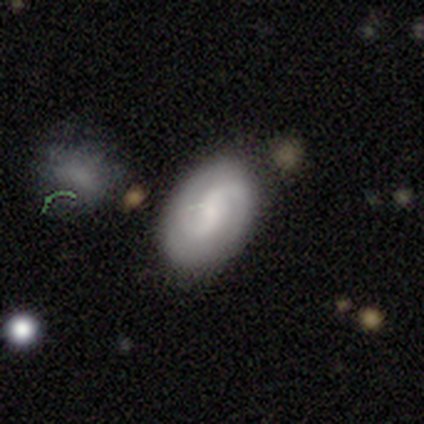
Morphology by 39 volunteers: Overall: smooth (49%; featured or disk 46%). How rounded: in between (84%). Merging: none (70%).